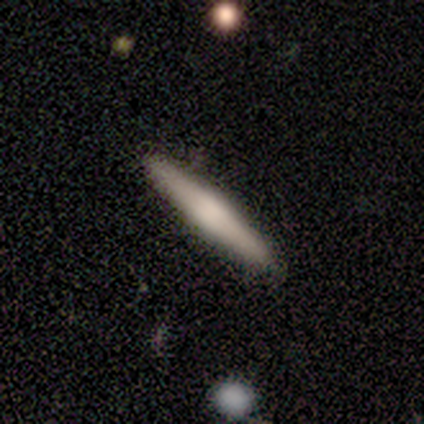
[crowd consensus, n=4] smooth 50%, featured or disk 25%, star or artifact 25%. Down the decision tree: how rounded — cigar-shaped (100%); merging — none (100%).